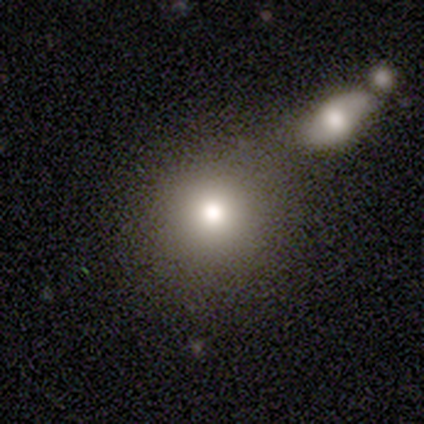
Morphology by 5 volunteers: Q: Smooth or featured?
A: smooth (80%); runner-up: featured or disk (20%)
Q: How rounded?
A: round (100%)
Q: Merging?
A: none (80%); runner-up: major disturbance (20%)